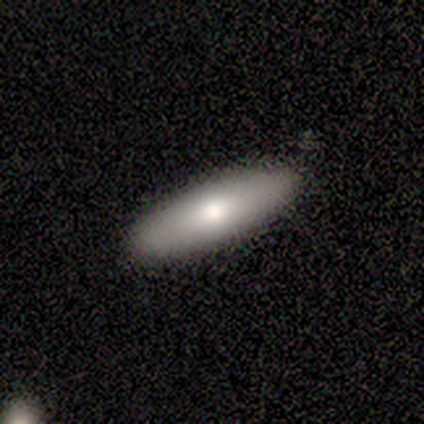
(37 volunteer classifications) Smooth or featured? 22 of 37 (59%) said smooth. How rounded? 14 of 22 (64%) said in between. Merging? 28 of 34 (82%) said none.